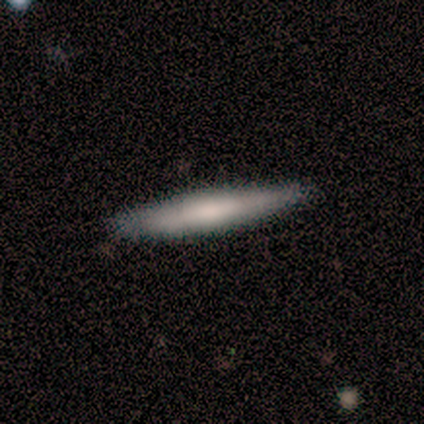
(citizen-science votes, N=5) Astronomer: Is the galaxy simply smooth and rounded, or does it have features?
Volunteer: smooth — 100%.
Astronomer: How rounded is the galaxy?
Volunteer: cigar-shaped — 100%.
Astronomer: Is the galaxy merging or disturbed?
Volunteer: none — 100%.